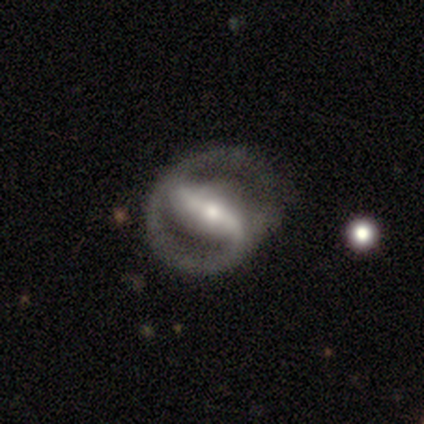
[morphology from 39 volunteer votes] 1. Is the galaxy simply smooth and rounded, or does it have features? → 97% featured or disk, 3% star or artifact, 0% smooth.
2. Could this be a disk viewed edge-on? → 89% no, 11% yes.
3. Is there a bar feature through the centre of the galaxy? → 68% strong, 21% weak, 12% no.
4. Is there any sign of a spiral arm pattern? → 82% yes, 18% no.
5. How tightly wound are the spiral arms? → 39% loose, 36% tight, 25% medium.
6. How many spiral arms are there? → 82% 2, 18% 1, 0% 3, 0% 4, 0% more than 4, 0% can't tell.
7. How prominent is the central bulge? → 56% moderate, 41% small, 3% large, 0% dominant, 0% none.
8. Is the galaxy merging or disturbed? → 53% none, 16% minor disturbance, 13% major disturbance, 3% merger.